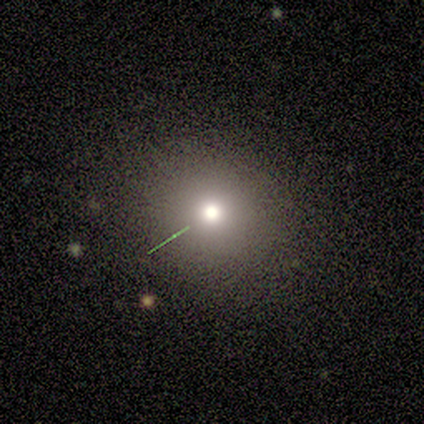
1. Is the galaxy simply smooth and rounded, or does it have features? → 80% smooth, 20% featured or disk, 0% star or artifact.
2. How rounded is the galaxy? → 100% round, 0% in between, 0% cigar-shaped.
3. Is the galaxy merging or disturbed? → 100% none, 0% minor disturbance, 0% major disturbance, 0% merger.